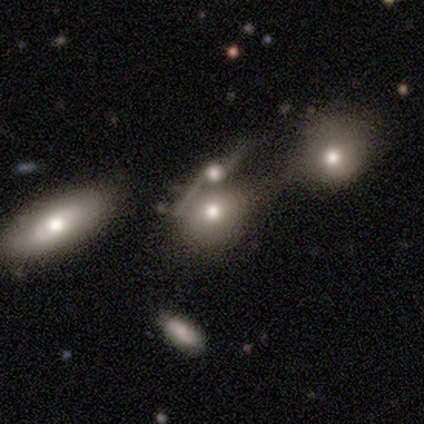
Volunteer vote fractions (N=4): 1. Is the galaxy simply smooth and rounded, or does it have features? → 75% smooth, 25% featured or disk, 0% star or artifact.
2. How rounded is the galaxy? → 67% round, 33% in between, 0% cigar-shaped.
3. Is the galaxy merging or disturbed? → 75% merger, 25% none, 0% minor disturbance, 0% major disturbance.